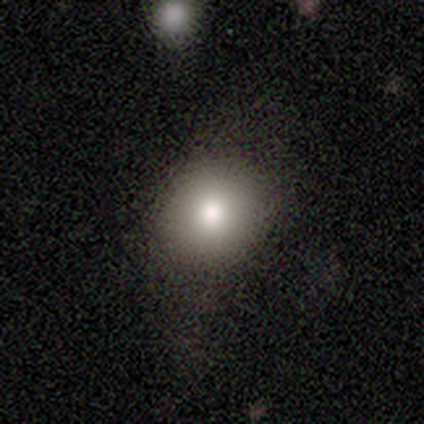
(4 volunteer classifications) This appears to be a smooth galaxy with no disk features (75%) that is round (67%). Merging: none (67%).